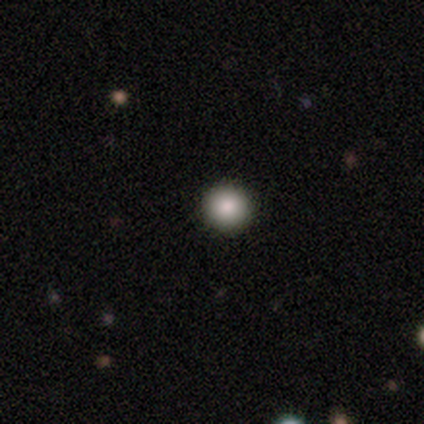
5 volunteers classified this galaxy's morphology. Q: Smooth or featured?
A: smooth (100%)
Q: How rounded?
A: round (100%)
Q: Merging?
A: none (100%)